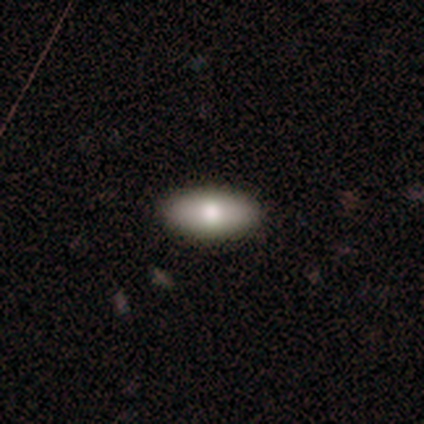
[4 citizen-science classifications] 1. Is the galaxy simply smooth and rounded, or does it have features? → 75% smooth, 25% featured or disk, 0% star or artifact.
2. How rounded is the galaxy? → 100% in between, 0% round, 0% cigar-shaped.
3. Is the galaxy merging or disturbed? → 100% none, 0% minor disturbance, 0% major disturbance, 0% merger.